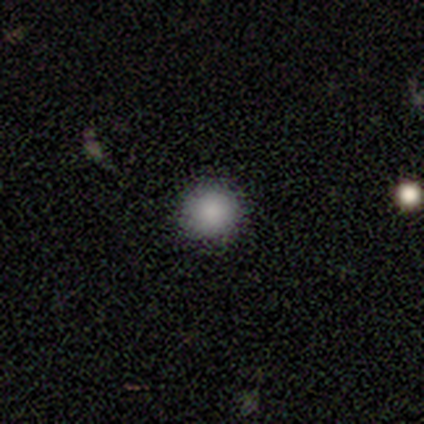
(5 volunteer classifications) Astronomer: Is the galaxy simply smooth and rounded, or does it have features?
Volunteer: smooth — 100%.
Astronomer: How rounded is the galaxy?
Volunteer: round — 100%.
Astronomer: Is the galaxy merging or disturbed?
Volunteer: none — 100%.